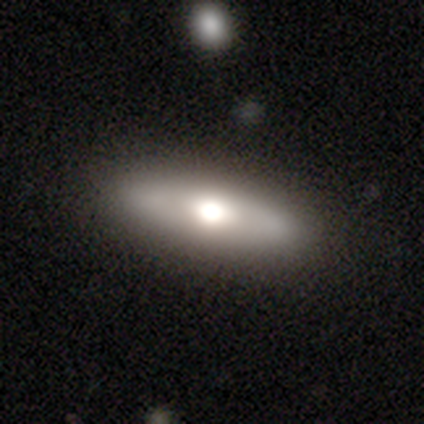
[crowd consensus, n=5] smooth 60%, featured or disk 40%, star or artifact 0%. Down the decision tree: how rounded — round (33%, tied with in between and cigar-shaped); merging — none (60%).